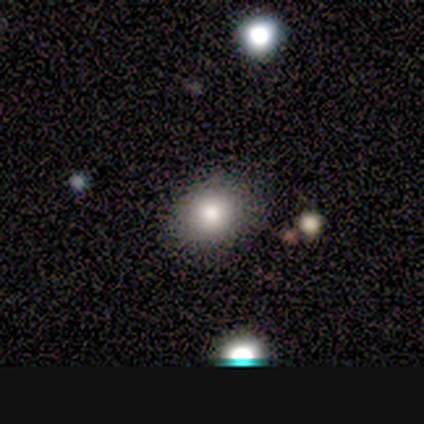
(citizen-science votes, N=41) This appears to be a smooth galaxy with no disk features (66%) that is in between round and cigar-shaped (56%). Merging: none (79%).